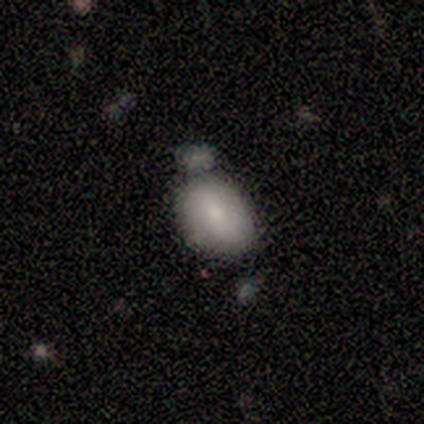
A smooth galaxy with no disk features (60%) that is in between round and cigar-shaped (100%).

Vote fractions:
- Smooth or featured? smooth: 60% / featured or disk: 20% / star or artifact: 20%
- How rounded? in between: 100% / round: 0% / cigar-shaped: 0%
- Merging? none: 75% / merger: 25% / minor disturbance: 0% / major disturbance: 0%